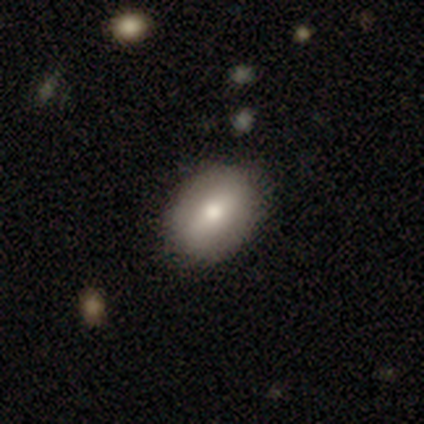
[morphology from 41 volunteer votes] This is likely a smooth galaxy (68%). How rounded: clearly in between (82%). Merging: clearly none (89%).